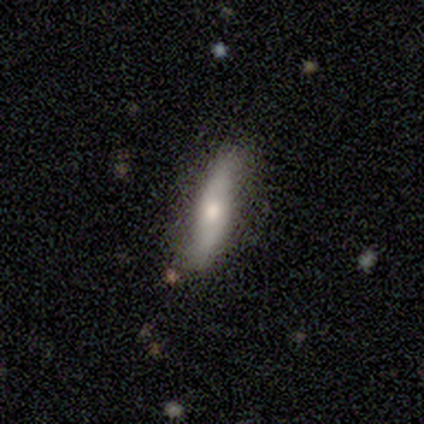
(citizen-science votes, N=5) This is clearly a smooth galaxy (80%). How rounded: likely cigar-shaped (75%). Merging: likely none (60%).